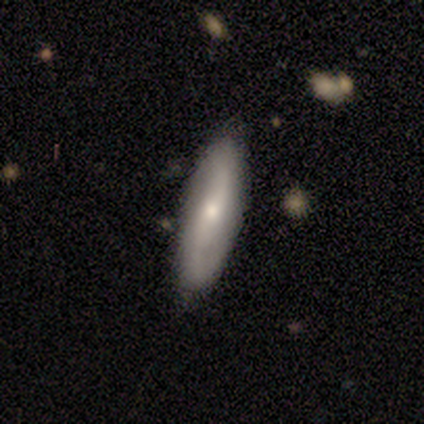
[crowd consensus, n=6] This appears to be a featured or disk galaxy (67%) with no bar (50%), 2 (100%) loose (50%) spiral arms (100%) and a moderate central bulge (50%, tied with small). Merging: none (100%).